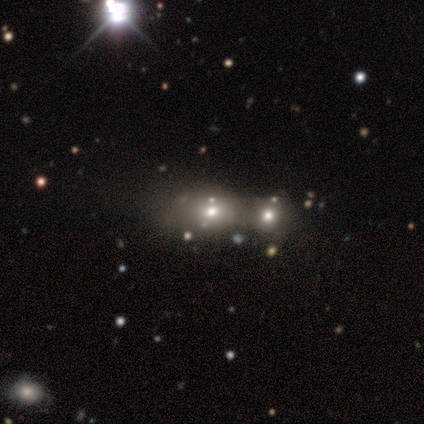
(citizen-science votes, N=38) smooth 50%, star or artifact 26%, featured or disk 24%. Down the decision tree: how rounded — round (47%, tied with in between); merging — merger (39%).